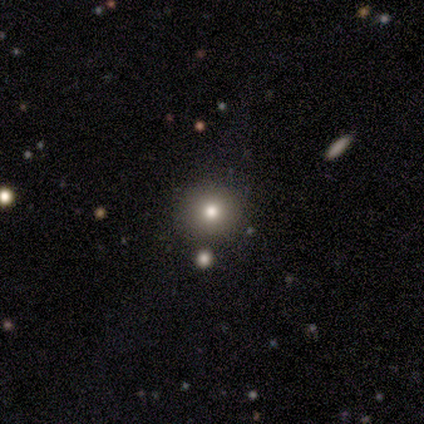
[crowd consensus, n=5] smooth-or-featured: smooth: 80% | star or artifact: 20% | featured or disk: 0%
  how-rounded: round: 100% | in between: 0% | cigar-shaped: 0%
  merging: none: 100% | minor disturbance: 0% | major disturbance: 0% | merger: 0%